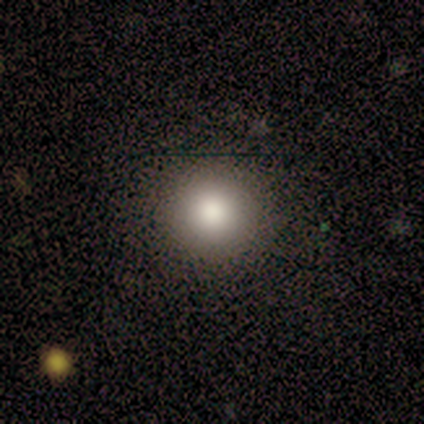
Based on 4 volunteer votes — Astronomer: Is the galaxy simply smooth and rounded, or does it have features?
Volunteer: smooth — 50%.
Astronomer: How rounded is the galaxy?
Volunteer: round — 100%.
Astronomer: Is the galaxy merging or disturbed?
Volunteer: none — 100%.